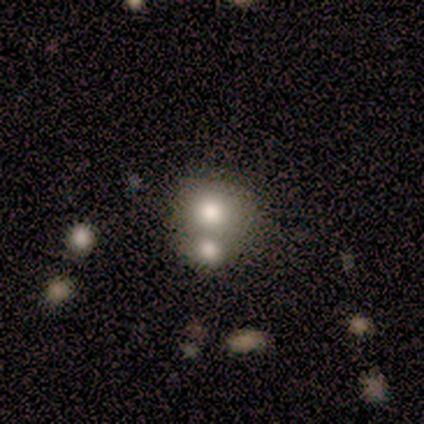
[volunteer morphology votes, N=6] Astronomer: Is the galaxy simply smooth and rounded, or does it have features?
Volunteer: smooth — 83%.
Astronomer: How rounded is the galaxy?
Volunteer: in between — 60% (runner-up: round, 40%).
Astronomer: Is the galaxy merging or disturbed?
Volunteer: none — 60% (runner-up: merger, 40%).